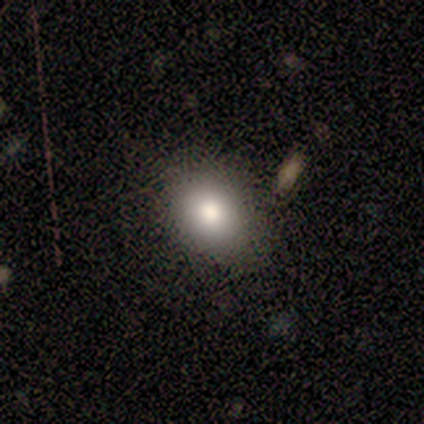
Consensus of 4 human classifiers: Volunteers were most divided on "how rounded" (2-way tie): round: 50%, in between: 50%, cigar-shaped: 0%. More confident: smooth or featured — smooth (100%); merging — none (75%).